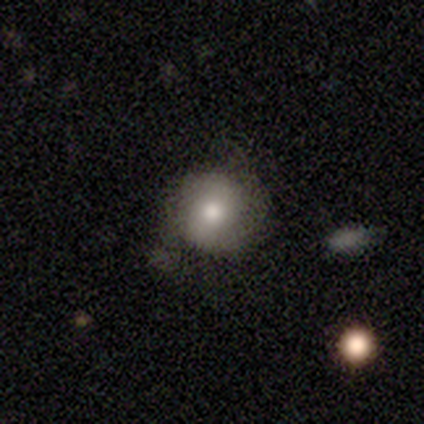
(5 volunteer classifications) A smooth galaxy with no disk features (60%) that is round (100%). Merging: none (80%).